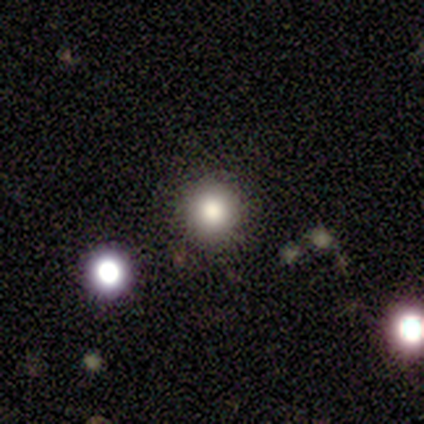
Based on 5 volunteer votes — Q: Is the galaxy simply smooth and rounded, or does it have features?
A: smooth — 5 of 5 (100%).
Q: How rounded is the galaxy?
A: round — 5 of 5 (100%).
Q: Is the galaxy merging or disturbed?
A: none — 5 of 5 (100%).